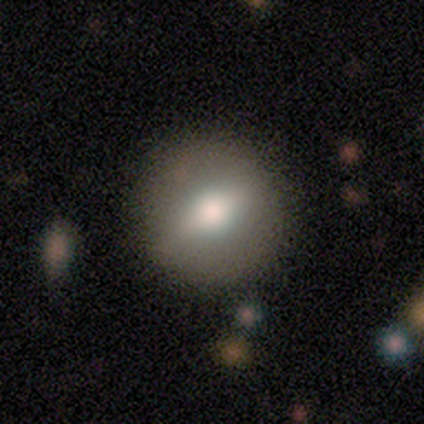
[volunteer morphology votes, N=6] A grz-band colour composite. It shows a featured or disk galaxy (67%) with a strong bar (33%, tied with weak and no), no spiral arms (100%) and a moderate central bulge (67%). Merging: none (83%).